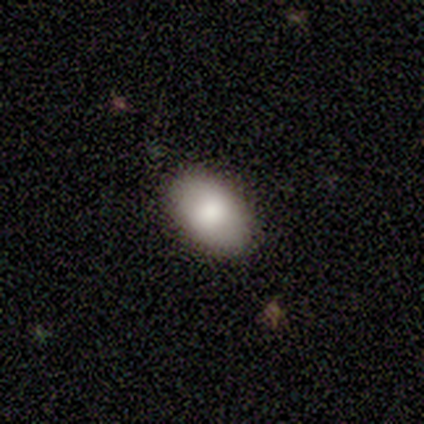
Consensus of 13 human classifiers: Morphology: type=smooth (69%); roundness=in between (89%); merging=none (100%).